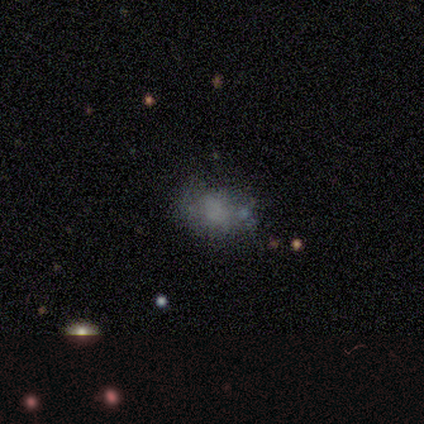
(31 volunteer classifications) This is possibly a smooth galaxy (55%). How rounded: likely in between (71%). Merging: likely none (63%).